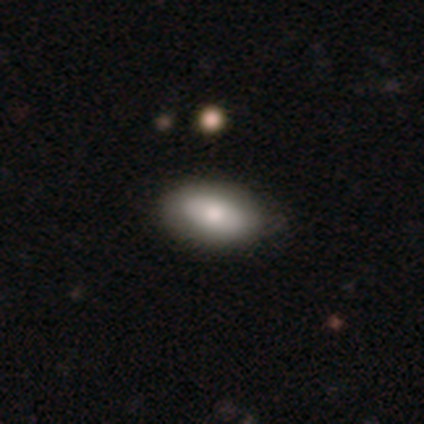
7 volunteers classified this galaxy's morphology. Volunteers were most divided on "merging": none: 71%, minor disturbance: 29%, major disturbance: 0%, merger: 0%. More confident: how rounded — in between (100%); smooth or featured — smooth (86%).